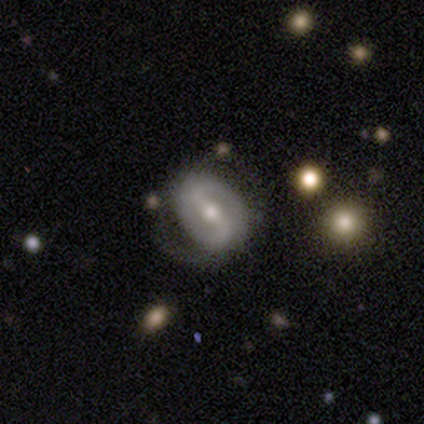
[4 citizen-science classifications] Smooth or featured: featured or disk — 100%
Edge-on disk: no — 100%
Bar: weak — 75% (strong — 25%)
Spiral arms: yes — 75% (no — 25%)
Spiral winding: medium — 67% (loose — 33%)
Spiral arm count: 2 — 100%
Bulge size: moderate — 75% (small — 25%)
Merging: none — 100%